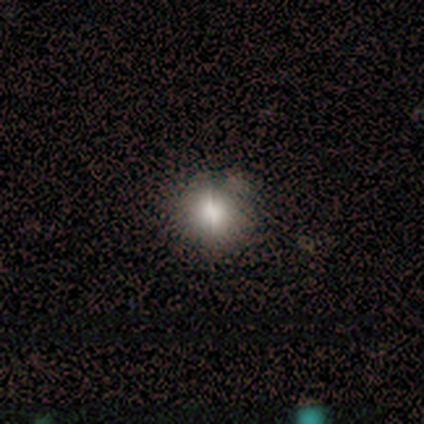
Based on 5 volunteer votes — A smooth galaxy with no disk features (80%) that is round (75%). Merging: none (75%).